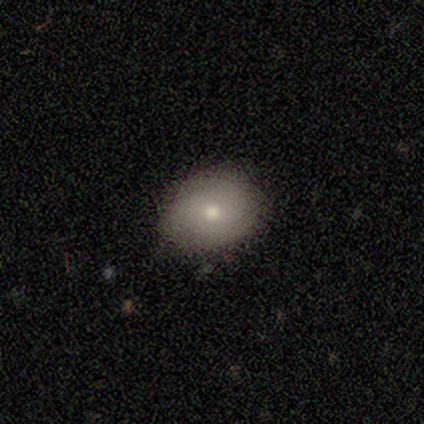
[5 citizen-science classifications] Morphology: type=smooth (60%); roundness=round (67%); merging=none (75%).